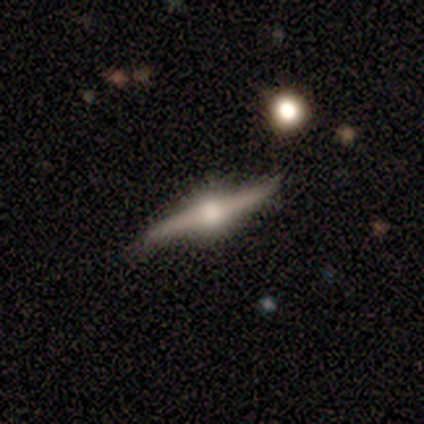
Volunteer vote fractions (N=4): Overall: featured or disk (100%). Edge-on disk: yes (100%). Edge-on bulge: rounded (100%). Merging: none (100%).